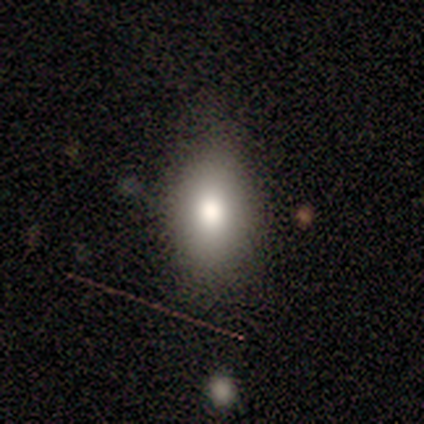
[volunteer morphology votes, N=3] smooth_or_featured: smooth (p=0.67) [alt: featured or disk p=0.33]
how_rounded: in between (p=0.50) [tied with: cigar-shaped p=0.50]
merging: none (p=0.33) [tied with: minor disturbance p=0.33, major disturbance p=0.33]